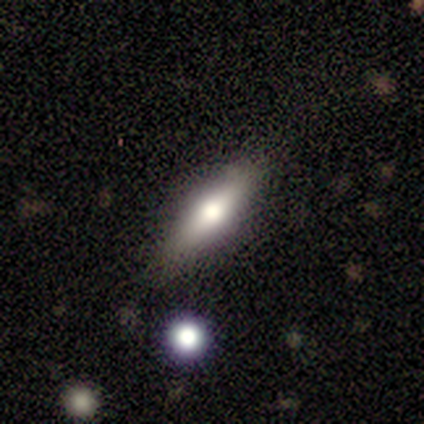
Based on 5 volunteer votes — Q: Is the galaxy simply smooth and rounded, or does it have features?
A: smooth — 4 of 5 (80%).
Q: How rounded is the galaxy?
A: in between — 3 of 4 (75%).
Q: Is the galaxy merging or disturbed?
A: none — 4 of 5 (80%).